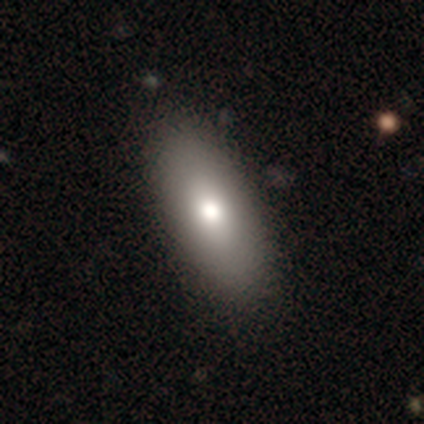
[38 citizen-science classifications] Smooth or featured: smooth — 84% (featured or disk — 16%)
How rounded: in between — 81% (cigar-shaped — 16%)
Merging: none — 68%